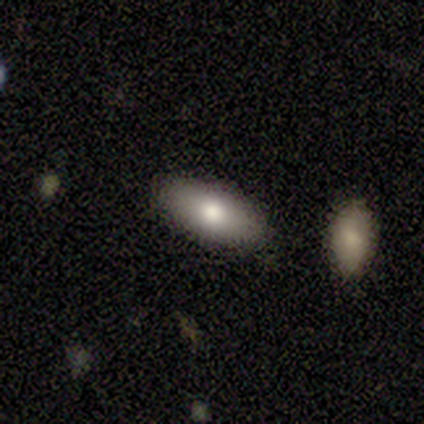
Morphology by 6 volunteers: Smooth or featured? smooth (100%)
How rounded? in between (83%)
Merging? none (100%)